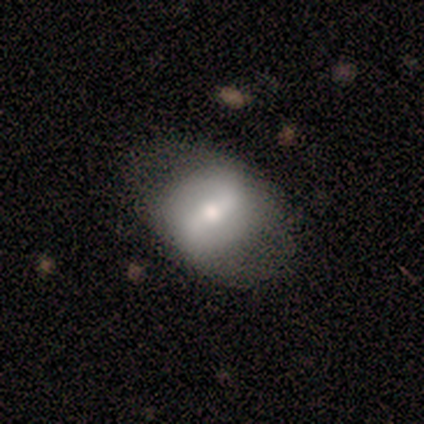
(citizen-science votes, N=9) smooth 44%, featured or disk 33%, star or artifact 22%. Down the decision tree: how rounded — round (75%); merging — none (71%).